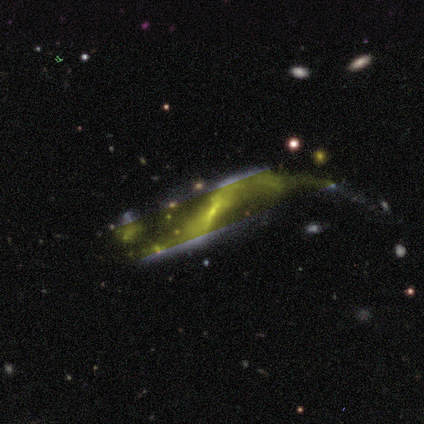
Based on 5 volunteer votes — Overall: featured or disk (60%; smooth 40%). Edge-on disk: no (100%). Bar: no (67%; weak 33%). Spiral arms: yes (100%). Spiral arm count: 2 (100%). Spiral winding: loose (100%). Bulge size: small (67%; none 33%). Merging: none (40%, tied with minor disturbance).